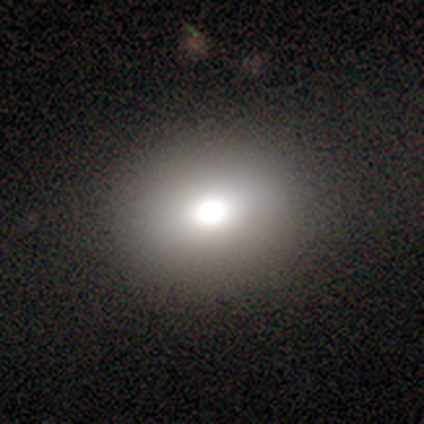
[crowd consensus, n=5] Morphology: type=smooth (80%); roundness=round (50%, tied with in between); merging=none (60%).